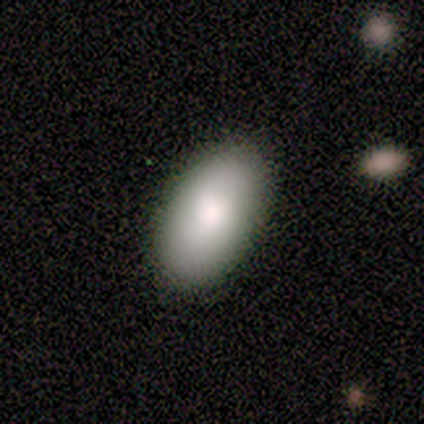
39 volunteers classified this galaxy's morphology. A smooth galaxy with no disk features (92%) that is in between round and cigar-shaped (97%). Merging: none (97%).